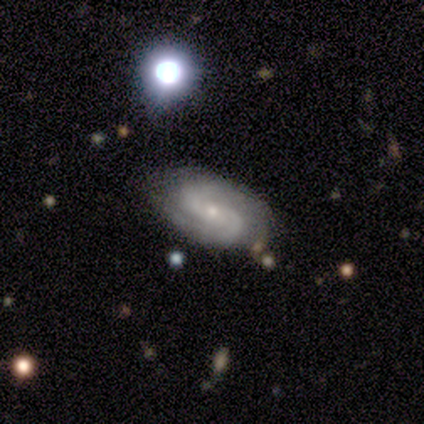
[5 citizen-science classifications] A featured or disk galaxy (80%) with no bar (100%), 2 (100%) tight (33%, tied with medium and loose) spiral arms (100%) and a small central bulge (100%).

Vote fractions:
- Smooth or featured? featured or disk: 80% / star or artifact: 20% / smooth: 0%
- Edge-on disk? no: 75% / yes: 25%
- Bar? no: 100% / strong: 0% / weak: 0%
- Spiral arms? yes: 100% / no: 0%
- Spiral winding? tight: 33% (tied) / medium: 33% (tied) / loose: 33% (tied)
- Spiral arm count? 2: 100% / 1: 0% / 3: 0% / 4: 0% / more than 4: 0% / can't tell: 0%
- Bulge size? small: 100% / dominant: 0% / large: 0% / moderate: 0% / none: 0%
- Merging? none: 75% / minor disturbance: 25% / major disturbance: 0% / merger: 0%